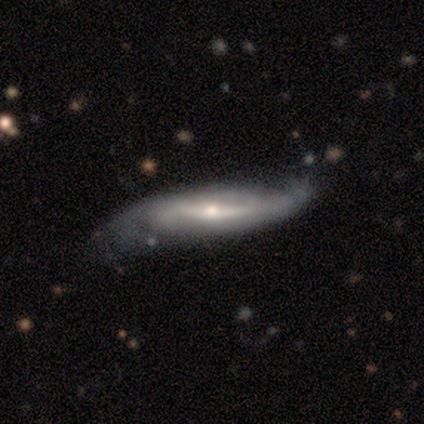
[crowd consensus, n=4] This is likely a featured or disk galaxy (75%). It is likely not viewed edge-on (67%). Bar: clearly weak (100%). Spiral arm pattern: possibly yes (50%, tied with no). Spiral arm count: clearly 2 (100%). Spiral winding: clearly tight (100%). Central bulge: possibly moderate (50%, tied with small). Merging: possibly minor disturbance (50%).